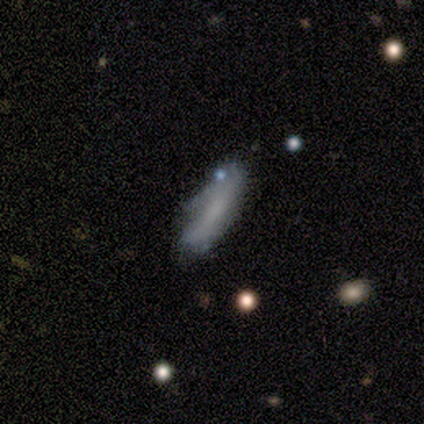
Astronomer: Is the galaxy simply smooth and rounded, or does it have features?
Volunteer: smooth — 73%.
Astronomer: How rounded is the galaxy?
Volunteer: cigar-shaped — 50% (runner-up: in between, 38%).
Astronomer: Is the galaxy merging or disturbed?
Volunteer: none — 64%.